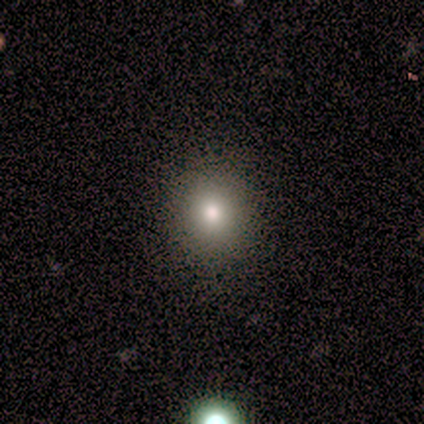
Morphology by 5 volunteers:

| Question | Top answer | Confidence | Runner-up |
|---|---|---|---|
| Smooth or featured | smooth | 60% | star or artifact (40%) |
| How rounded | round | 100% | — |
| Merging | none | 100% | — |